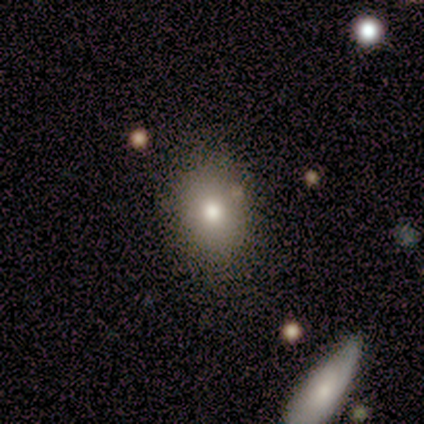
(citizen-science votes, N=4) This is clearly a smooth galaxy (100%). How rounded: possibly round (50%, tied with in between). Merging: possibly none (50%).